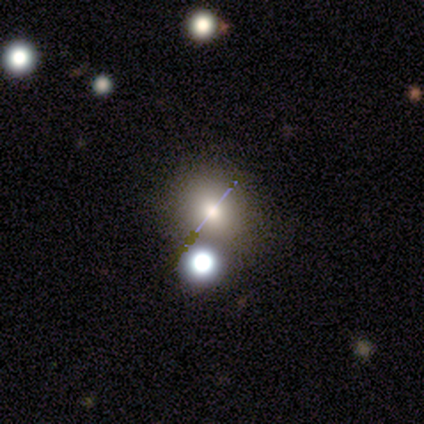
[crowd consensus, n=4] A star or artifact, not a galaxy (50%).